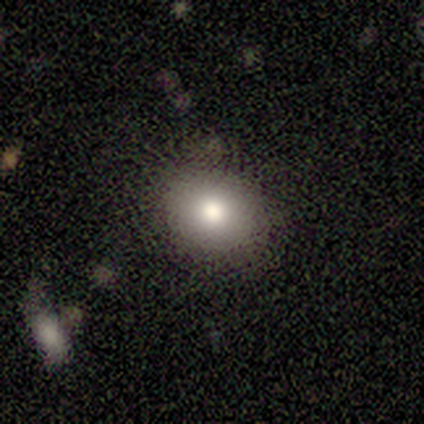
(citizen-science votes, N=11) A smooth galaxy with no disk features (82%) that is round (56%). Merging: none (78%).